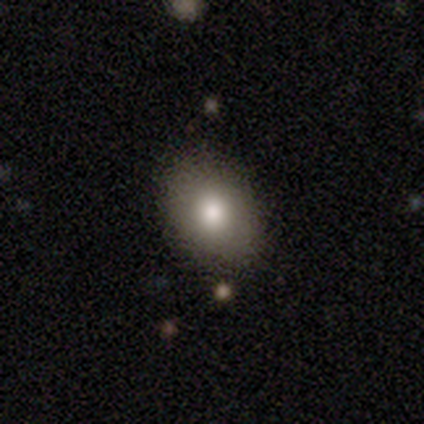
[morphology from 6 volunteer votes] smooth-or-featured: smooth: 67% | featured or disk: 17% | star or artifact: 17%
  how-rounded: in between: 100% | round: 0% | cigar-shaped: 0%
  merging: none: 80% | minor disturbance: 20% | major disturbance: 0% | merger: 0%